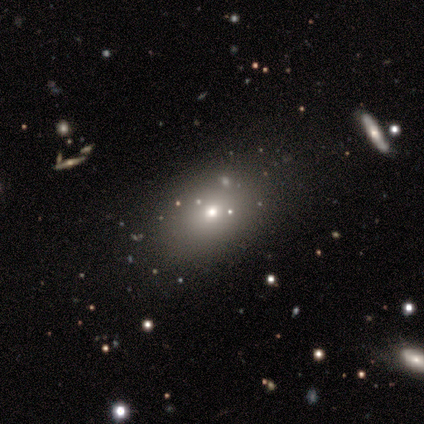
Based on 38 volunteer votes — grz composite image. It shows a smooth galaxy with no disk features (61%) that is in between round and cigar-shaped (78%). Merging: none (79%).